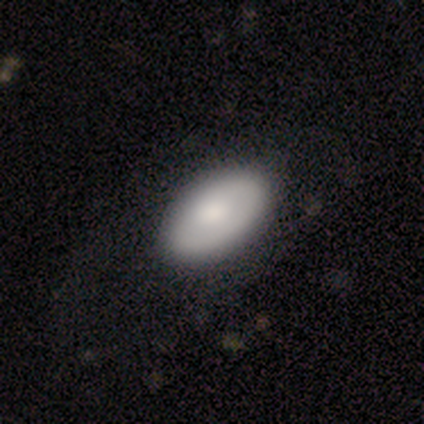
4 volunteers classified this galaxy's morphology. Q: Smooth or featured?
A: smooth (75%); runner-up: featured or disk (25%)
Q: How rounded?
A: in between (67%); runner-up: round (33%)
Q: Merging?
A: none (50%); runner-up: minor disturbance (25%)